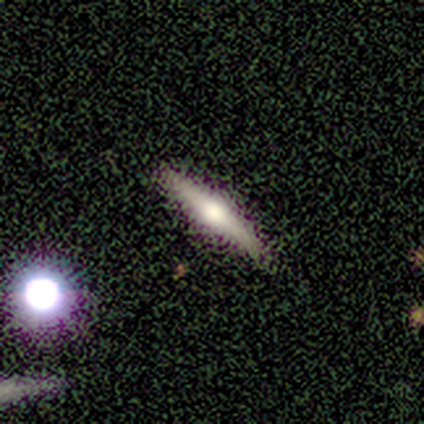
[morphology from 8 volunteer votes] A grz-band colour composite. It shows a featured or disk galaxy (88%) viewed edge-on (100%) with a rounded central bulge (86%). Merging: none (88%).